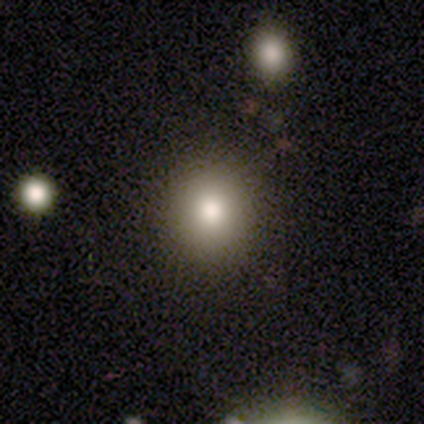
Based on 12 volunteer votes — smooth-or-featured: smooth: 75% | featured or disk: 17% | star or artifact: 8%
  how-rounded: round: 100% | in between: 0% | cigar-shaped: 0%
  merging: none: 91% | minor disturbance: 9% | major disturbance: 0% | merger: 0%